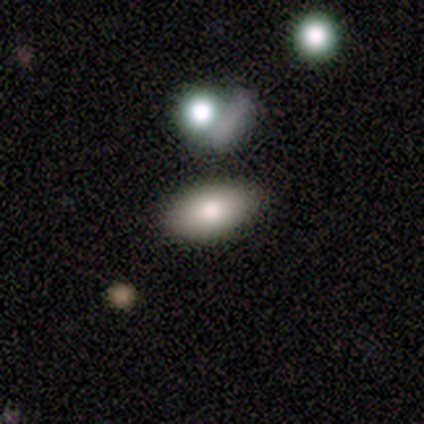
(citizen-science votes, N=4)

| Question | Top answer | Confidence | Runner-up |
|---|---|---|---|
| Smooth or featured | smooth | 50% | tied: featured or disk (50%) |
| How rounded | in between | 100% | — |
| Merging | none | 75% | merger (25%) |